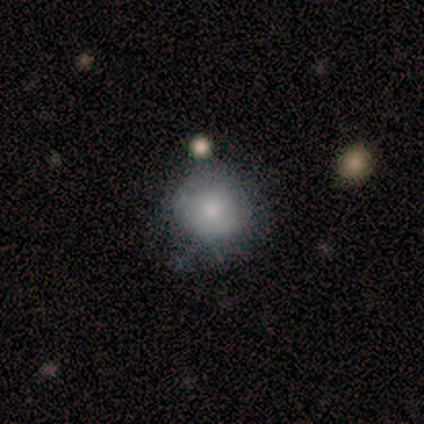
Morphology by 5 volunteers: type=smooth (80%); roundness=round (100%); merging=none (60%).